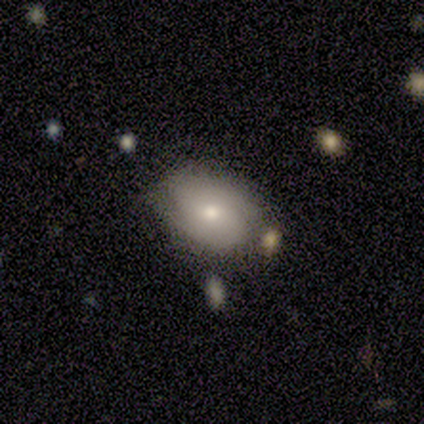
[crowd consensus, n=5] Smooth or featured?
  - smooth: 60% *
  - featured or disk: 40%
  - star or artifact: 0%
How rounded?
  - in between: 67% *
  - round: 33%
  - cigar-shaped: 0%
Merging?
  - none: 80% *
  - major disturbance: 20%
  - minor disturbance: 0%
  - merger: 0%